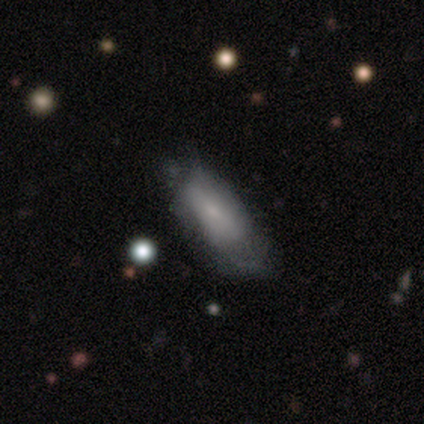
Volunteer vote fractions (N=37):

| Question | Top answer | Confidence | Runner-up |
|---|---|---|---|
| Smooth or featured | smooth | 65% | featured or disk (30%) |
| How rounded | in between | 75% | cigar-shaped (25%) |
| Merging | none | 26% | minor disturbance (17%) |